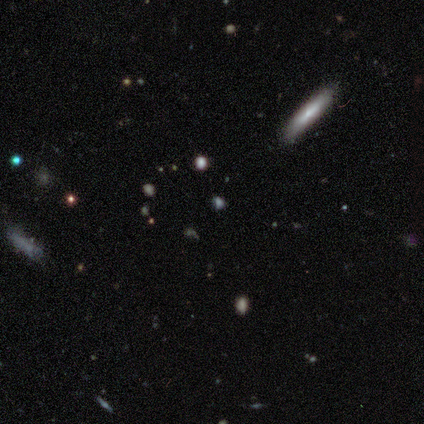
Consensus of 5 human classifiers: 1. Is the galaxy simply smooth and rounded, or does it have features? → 60% star or artifact, 40% smooth, 0% featured or disk.